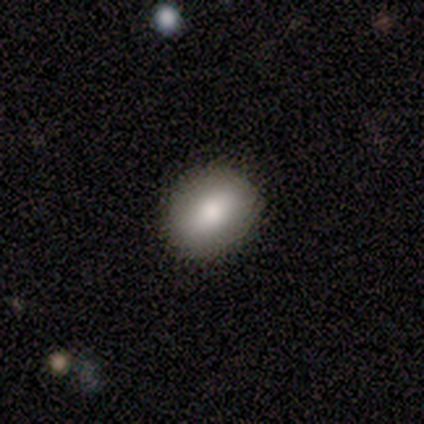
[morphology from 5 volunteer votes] Overall: smooth (80%). How rounded: round (50%, tied with in between). Merging: none (100%).